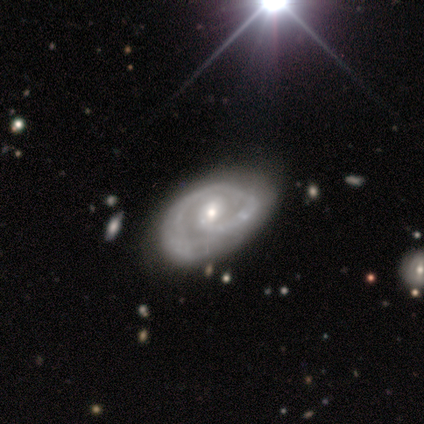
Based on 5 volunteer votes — This is clearly a featured or disk galaxy (100%). It is clearly not viewed edge-on (100%). Bar: likely no (60%). Spiral arm pattern: clearly yes (100%). Spiral arm count: likely 1 (60%). Spiral winding: likely tight (60%). Central bulge: likely small (60%). Merging: clearly minor disturbance (80%).